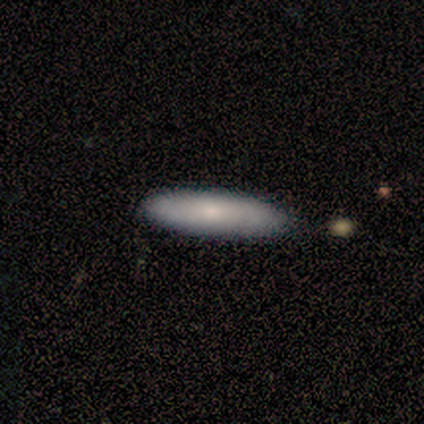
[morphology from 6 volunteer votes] smooth_or_featured: smooth (p=0.83) [alt: featured or disk p=0.17]
how_rounded: cigar-shaped (p=0.80) [alt: in between p=0.20]
merging: none (p=1.00)